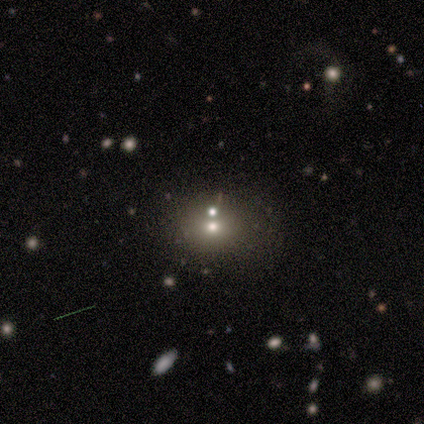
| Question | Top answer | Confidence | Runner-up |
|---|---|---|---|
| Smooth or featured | smooth | 75% | featured or disk (25%) |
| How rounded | round | 67% | in between (33%) |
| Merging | none | 75% | minor disturbance (25%) |